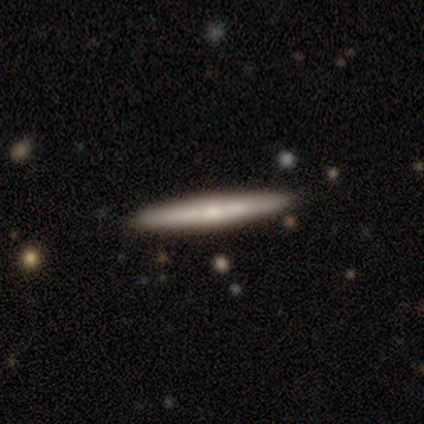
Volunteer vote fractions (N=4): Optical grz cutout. It shows a smooth galaxy with no disk features (50%, tied with featured or disk) that is cigar-shaped (100%). Merging: none (100%).